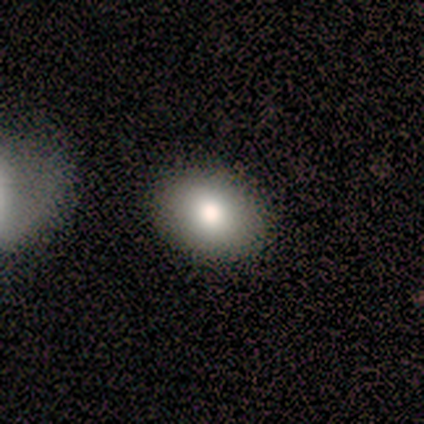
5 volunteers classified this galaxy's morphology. Smooth or featured? smooth (60%)
How rounded? round (67%)
Merging? none (100%)